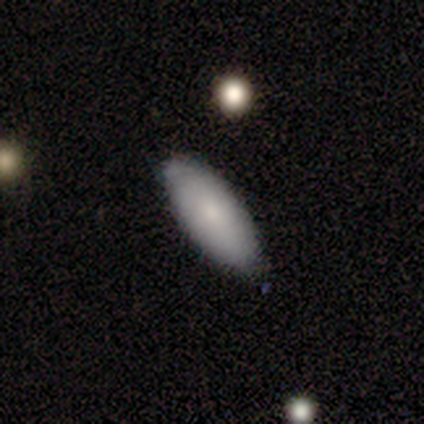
Smooth or featured? 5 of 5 (100%) said smooth. How rounded? 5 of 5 (100%) said in between. Merging? 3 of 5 (60%) said none.